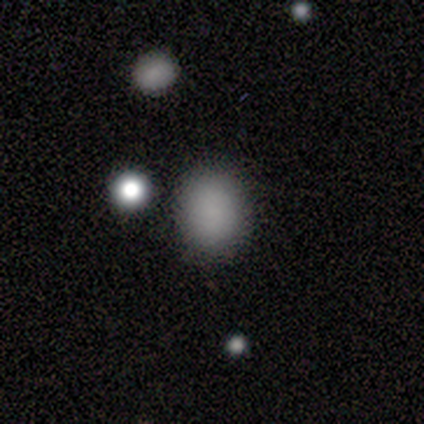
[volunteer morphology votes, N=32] Volunteers were most divided on "how rounded": in between: 54%, round: 46%, cigar-shaped: 0%. More confident: merging — none (96%); smooth or featured — smooth (75%).